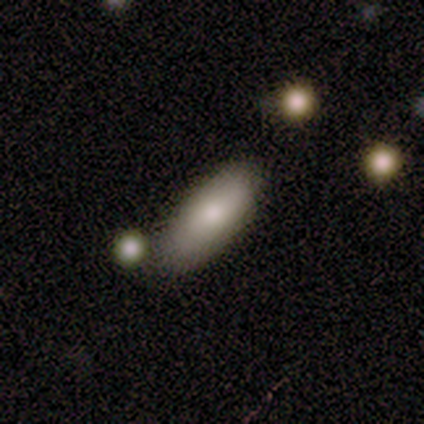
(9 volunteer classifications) Smooth or featured: smooth — 78% (featured or disk — 22%)
How rounded: in between — 100%
Merging: none — 89% (minor disturbance — 11%)